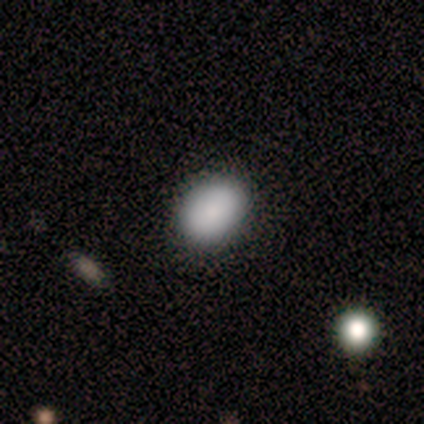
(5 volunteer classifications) Morphology: type=smooth (80%); roundness=in between (100%); merging=none (100%).